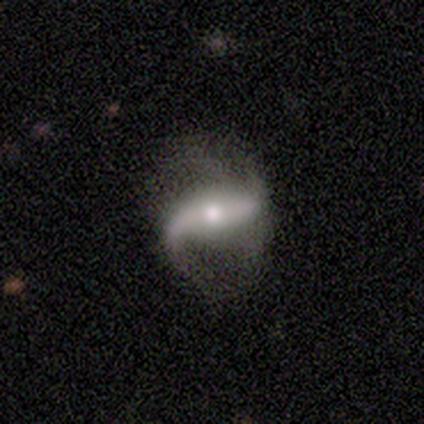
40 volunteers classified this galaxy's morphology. A featured or disk galaxy (95%) with a weak bar (41%), 2 (90%) loose (86%) spiral arms (91%) and a moderate central bulge (56%).

Vote fractions:
- Smooth or featured? featured or disk: 95% / smooth: 2% / star or artifact: 2%
- Edge-on disk? no: 84% / yes: 16%
- Bar? weak: 41% / strong: 31% / no: 28%
- Spiral arms? yes: 91% / no: 9%
- Spiral winding? loose: 86% / medium: 14% / tight: 0%
- Spiral arm count? 2: 90% / 1: 7% / more than 4: 3% / 3: 0% / 4: 0% / can't tell: 0%
- Bulge size? moderate: 56% / small: 38% / large: 6% / dominant: 0% / none: 0%
- Merging? none: 62% / major disturbance: 18% / minor disturbance: 13% / merger: 8%